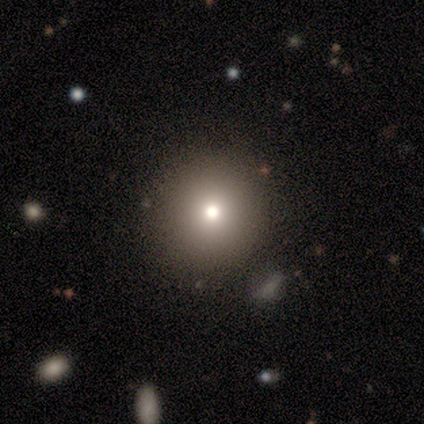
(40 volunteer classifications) Overall: smooth (62%; star or artifact 25%). How rounded: round (96%). Merging: none (67%).